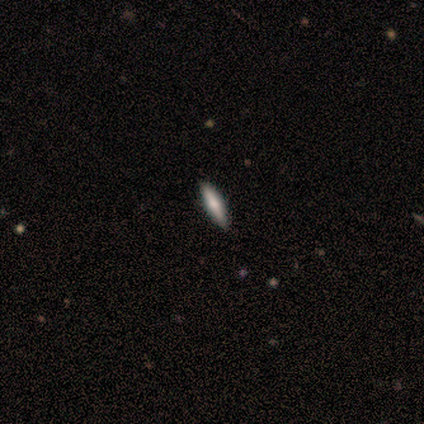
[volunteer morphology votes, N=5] This appears to be a smooth galaxy with no disk features (60%) that is cigar-shaped (100%). Merging: none (100%).